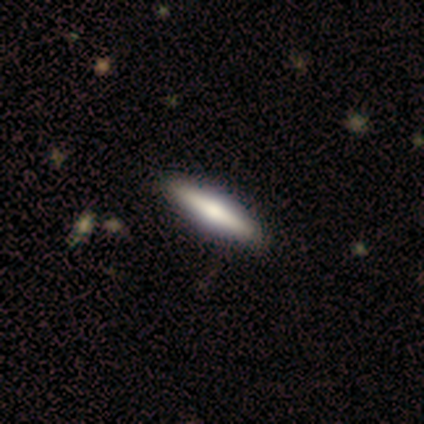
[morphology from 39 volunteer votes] This is possibly a smooth galaxy (56%). How rounded: likely cigar-shaped (77%). Merging: clearly none (82%).